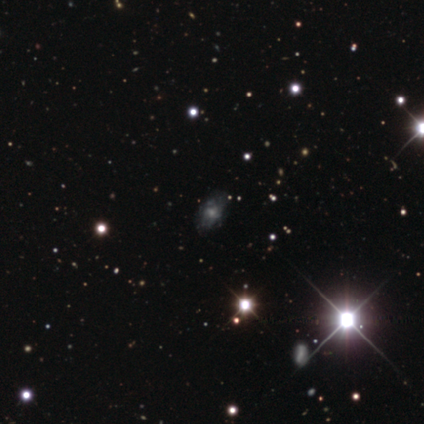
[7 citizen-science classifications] Q: Smooth or featured?
A: featured or disk (86%); runner-up: star or artifact (14%)
Q: Edge-on disk?
A: no (100%)
Q: Bar?
A: no (50%); runner-up: weak (33%)
Q: Spiral arms?
A: yes (67%); runner-up: no (33%)
Q: Spiral winding?
A: tight (75%); runner-up: medium (25%)
Q: Spiral arm count?
A: can't tell (75%); runner-up: 4 (25%)
Q: Bulge size?
A: moderate (50%); tied with: small (50%)
Q: Merging?
A: minor disturbance (50%); runner-up: none (33%)